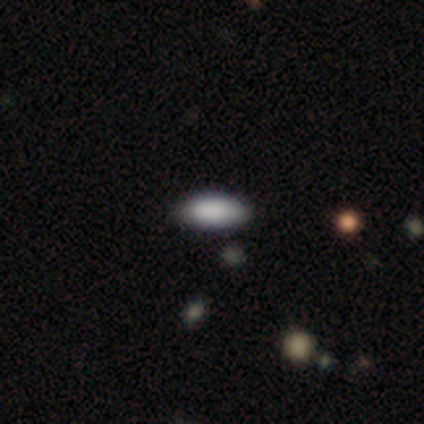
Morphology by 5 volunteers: Volunteers were most divided on "merging": none: 80%, minor disturbance: 20%, major disturbance: 0%, merger: 0%. More confident: smooth or featured — smooth (100%); how rounded — in between (100%).